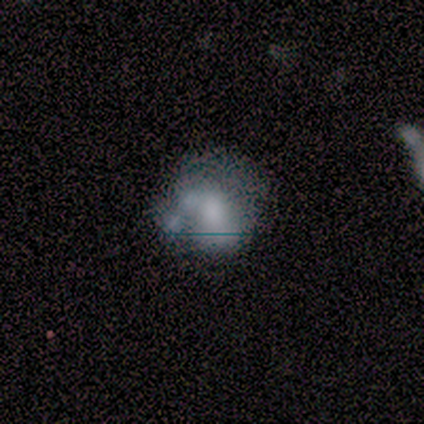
Smooth or featured? smooth (60%)
How rounded? round (67%)
Merging? none (60%)